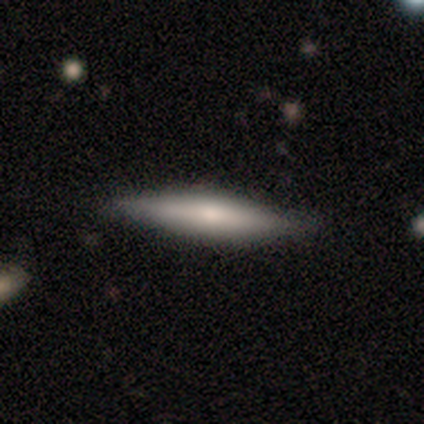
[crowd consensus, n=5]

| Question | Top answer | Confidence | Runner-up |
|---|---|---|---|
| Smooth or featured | smooth | 40% | tied: featured or disk (40%) |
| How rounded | in between | 50% | tied: cigar-shaped (50%) |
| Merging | none | 100% | — |